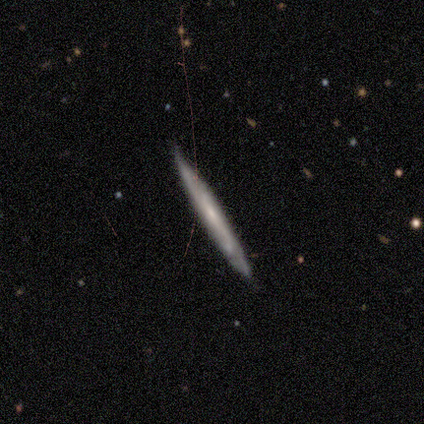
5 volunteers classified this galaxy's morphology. Smooth or featured: featured or disk — 80% (smooth — 20%)
Edge-on disk: yes — 75% (no — 25%)
Edge-on bulge: none — 100%
Merging: none — 60% (minor disturbance — 40%)